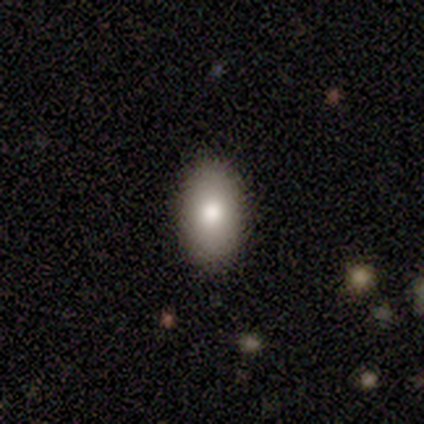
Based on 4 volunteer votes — Smooth or featured? smooth (100%)
How rounded? in between (100%)
Merging? none (100%)